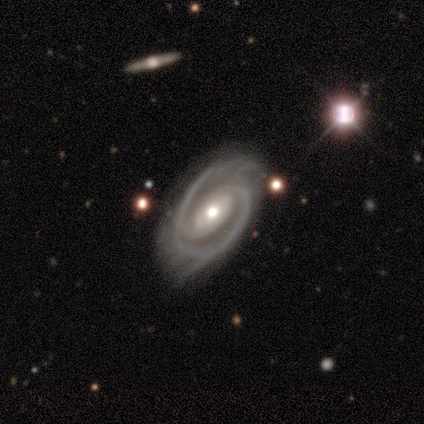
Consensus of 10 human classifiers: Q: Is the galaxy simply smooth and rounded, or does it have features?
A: featured or disk — 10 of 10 (100%).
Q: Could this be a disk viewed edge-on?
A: no — 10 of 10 (100%).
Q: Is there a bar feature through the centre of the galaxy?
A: no — 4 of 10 (40%).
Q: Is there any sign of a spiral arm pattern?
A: yes — 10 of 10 (100%).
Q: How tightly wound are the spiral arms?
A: tight — 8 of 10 (80%).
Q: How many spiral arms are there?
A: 2 — 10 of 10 (100%).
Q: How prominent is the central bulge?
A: moderate — 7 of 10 (70%).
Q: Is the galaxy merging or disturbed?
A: none — 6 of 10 (60%).